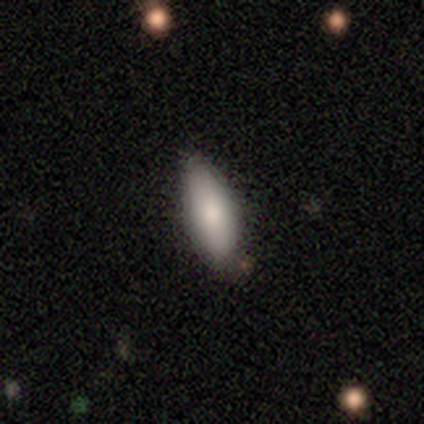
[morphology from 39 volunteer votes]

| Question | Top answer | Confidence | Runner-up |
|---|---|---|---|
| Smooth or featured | smooth | 87% | featured or disk (8%) |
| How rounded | in between | 76% | cigar-shaped (24%) |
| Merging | none | 73% | minor disturbance (27%) |